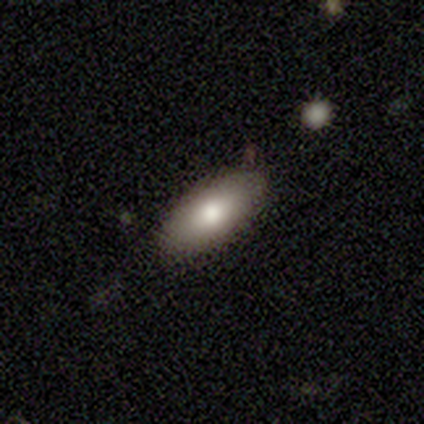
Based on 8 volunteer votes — smooth 62%, featured or disk 25%, star or artifact 12%. Down the decision tree: how rounded — in between (80%); merging — none (43%, tied with minor disturbance).